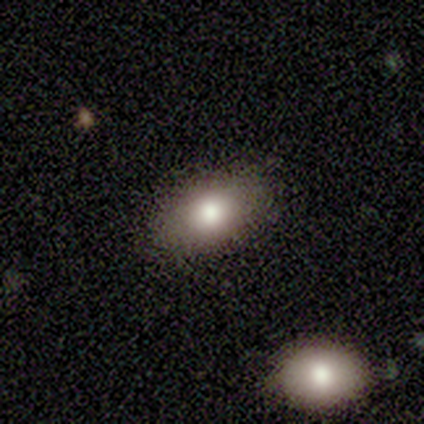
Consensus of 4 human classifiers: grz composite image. It shows a smooth galaxy with no disk features (50%, tied with star or artifact) that is in between round and cigar-shaped (100%). Merging: none (100%).